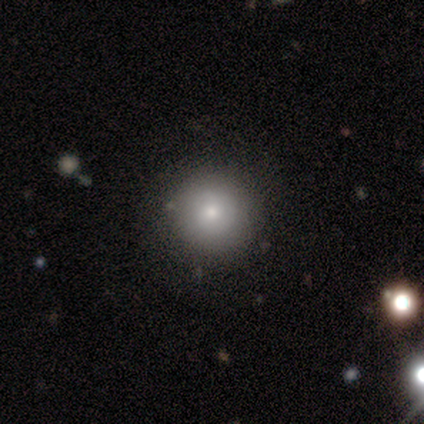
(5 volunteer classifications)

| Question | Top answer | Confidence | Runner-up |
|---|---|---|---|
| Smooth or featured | smooth | 80% | star or artifact (20%) |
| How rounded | round | 100% | — |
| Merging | none | 100% | — |